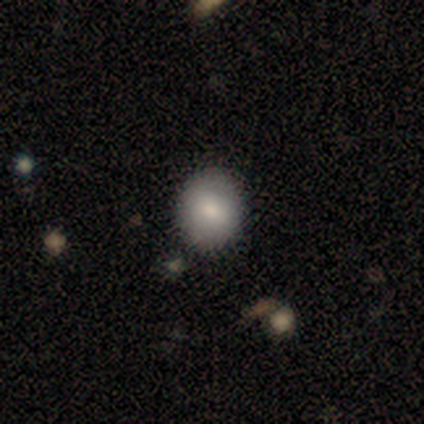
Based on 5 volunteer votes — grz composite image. It shows a smooth galaxy with no disk features (100%) that is round (80%). Merging: none (100%).